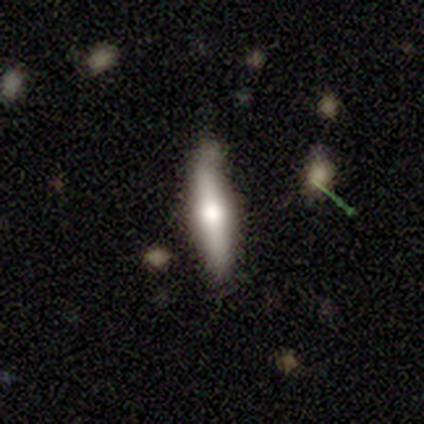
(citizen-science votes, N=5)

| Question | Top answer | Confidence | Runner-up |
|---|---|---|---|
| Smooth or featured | smooth | 60% | featured or disk (40%) |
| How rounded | cigar-shaped | 67% | in between (33%) |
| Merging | none | 60% | minor disturbance (40%) |